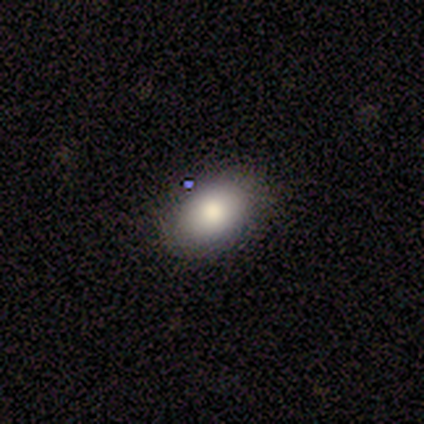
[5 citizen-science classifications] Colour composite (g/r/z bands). It shows a smooth galaxy with no disk features (100%) that is in between round and cigar-shaped (80%). Merging: none (100%).